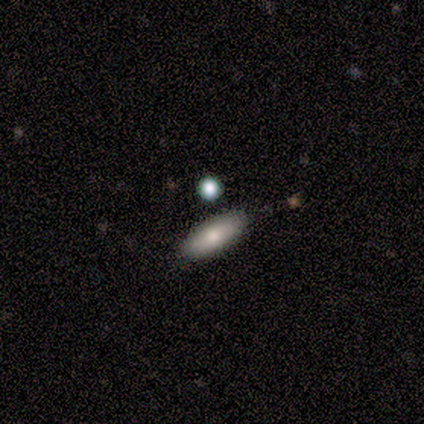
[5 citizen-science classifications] A smooth galaxy with no disk features (100%) that is in between round and cigar-shaped (60%). Merging: none (100%).